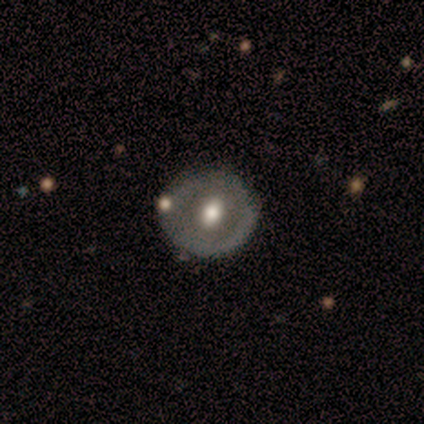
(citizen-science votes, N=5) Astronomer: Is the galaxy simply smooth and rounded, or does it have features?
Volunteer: smooth — 60% (runner-up: featured or disk, 40%).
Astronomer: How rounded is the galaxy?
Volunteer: round — 67%.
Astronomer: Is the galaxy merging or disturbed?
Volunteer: none — 100%.